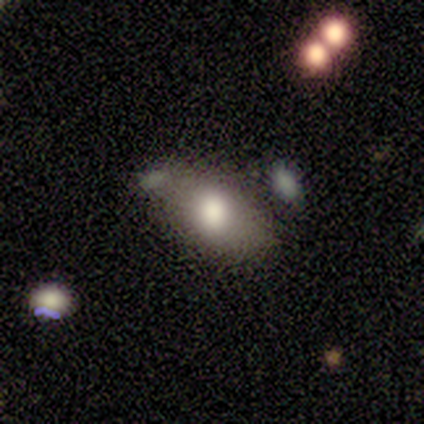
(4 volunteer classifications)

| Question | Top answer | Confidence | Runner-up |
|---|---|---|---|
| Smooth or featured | smooth | 75% | star or artifact (25%) |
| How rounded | in between | 100% | — |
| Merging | none | 100% | — |